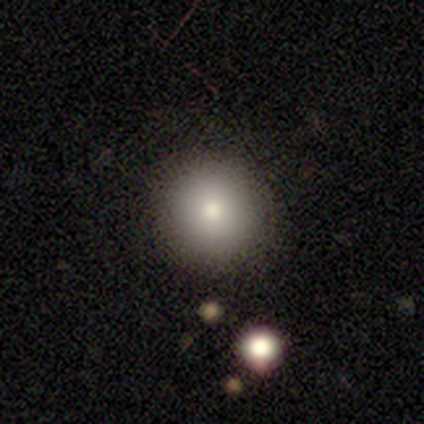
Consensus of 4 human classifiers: smooth 50% (tied), star or artifact 50% (tied), featured or disk 0%. Down the decision tree: how rounded — round (100%); merging — none (100%).